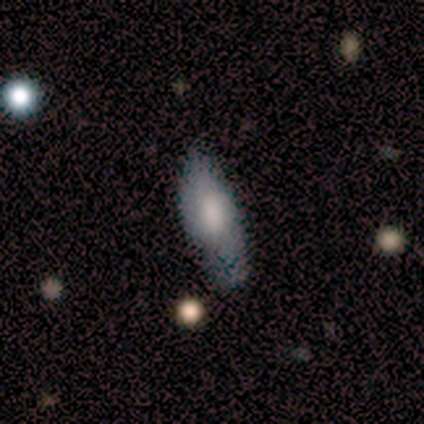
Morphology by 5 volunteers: Overall: smooth (80%). How rounded: in between (75%). Merging: none (80%).